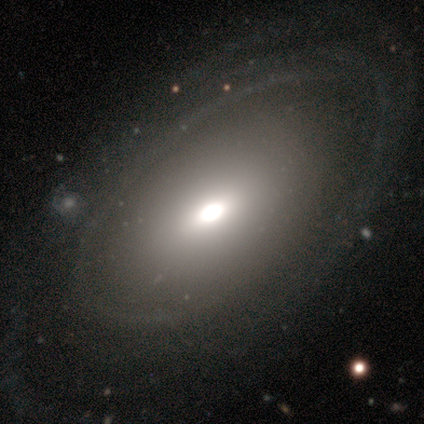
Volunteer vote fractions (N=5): Smooth or featured? 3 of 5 (60%) said featured or disk. Edge-on disk? 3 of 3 (100%) said no. Bar? 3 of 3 (100%) said no. Spiral arms? 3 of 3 (100%) said no. Bulge size? 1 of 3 (33%, tied with moderate and small) said large. Merging? 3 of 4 (75%) said none.